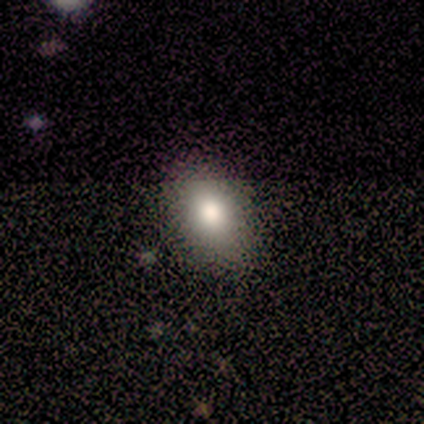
Smooth or featured? 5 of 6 (83%) said smooth. How rounded? 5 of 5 (100%) said in between. Merging? 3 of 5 (60%) said none.